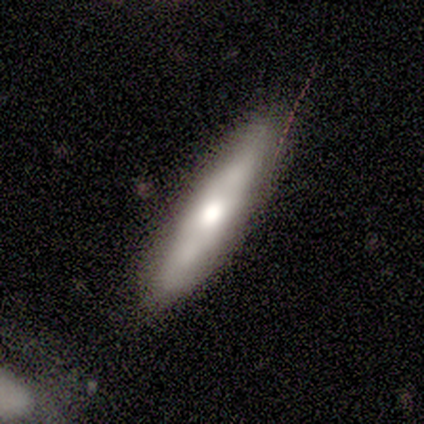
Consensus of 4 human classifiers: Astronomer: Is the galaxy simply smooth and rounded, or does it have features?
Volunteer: smooth — 50%, tied with featured or disk at 50%.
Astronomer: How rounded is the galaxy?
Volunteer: cigar-shaped — 100%.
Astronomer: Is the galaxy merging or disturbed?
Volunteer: none — 100%.